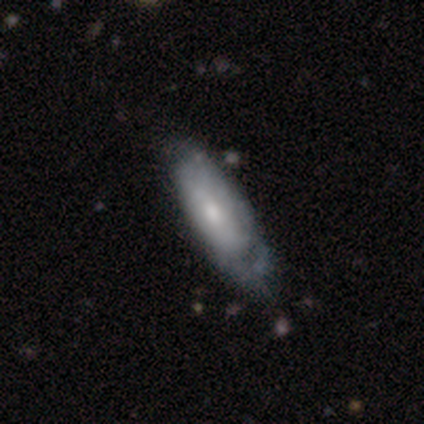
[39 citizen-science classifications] Smooth or featured?
  - featured or disk: 56% *
  - smooth: 41%
  - star or artifact: 3%
Edge-on disk?
  - no: 77% *
  - yes: 23%
Bar?
  - no: 88% *
  - weak: 12%
  - strong: 0%
Spiral arms?
  - yes: 82% *
  - no: 18%
Spiral winding?
  - tight: 64% *
  - medium: 29%
  - loose: 7%
Spiral arm count?
  - can't tell: 71% *
  - 1: 21%
  - 4: 7%
  - 2: 0%
  - 3: 0%
  - more than 4: 0%
Bulge size?
  - small: 47% *
  - moderate: 41%
  - large: 6%
  - none: 6%
  - dominant: 0%
Merging?
  - none: 45% * (tied)
  - minor disturbance: 45% * (tied)
  - major disturbance: 11%
  - merger: 0%